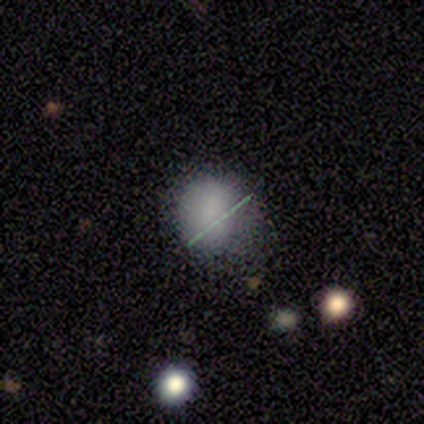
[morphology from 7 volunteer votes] This is clearly a smooth galaxy (86%). How rounded: clearly in between (83%). Merging: possibly none (50%).